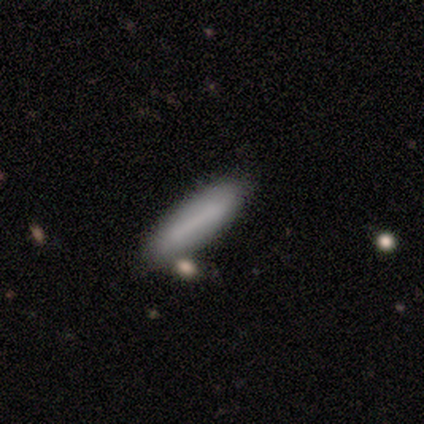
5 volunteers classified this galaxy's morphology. Smooth or featured? smooth (100%)
How rounded? cigar-shaped (80%)
Merging? none (100%)